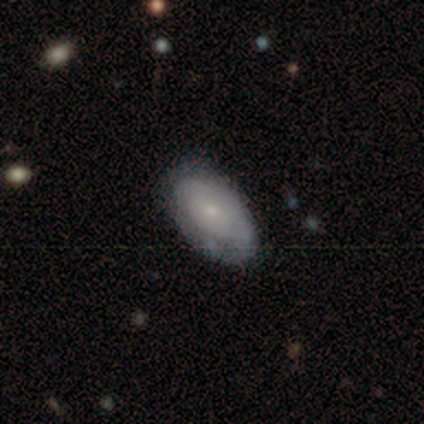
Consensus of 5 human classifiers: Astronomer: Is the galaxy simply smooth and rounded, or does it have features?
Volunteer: featured or disk — 80%.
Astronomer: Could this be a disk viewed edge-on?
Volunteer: no — 100%.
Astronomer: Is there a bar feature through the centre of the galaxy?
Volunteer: no — 75%.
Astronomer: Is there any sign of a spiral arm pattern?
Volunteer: yes — 50%, tied with no at 50%.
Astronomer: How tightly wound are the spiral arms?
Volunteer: tight — 100%.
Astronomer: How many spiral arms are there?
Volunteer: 2 — 50%, tied with can't tell at 50%.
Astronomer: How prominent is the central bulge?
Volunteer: moderate — 75%.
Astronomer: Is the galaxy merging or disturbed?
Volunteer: none — 60% (runner-up: minor disturbance, 40%).